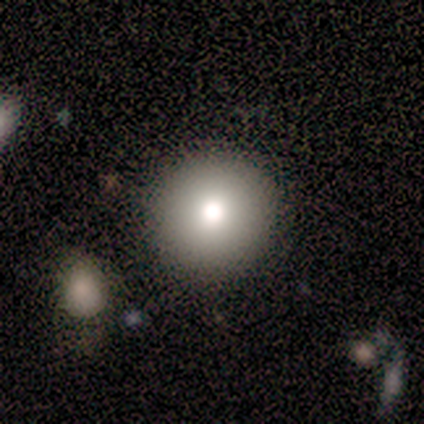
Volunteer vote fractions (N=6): smooth-or-featured: smooth: 83% | star or artifact: 17% | featured or disk: 0%
  how-rounded: round: 100% | in between: 0% | cigar-shaped: 0%
  merging: none: 80% | minor disturbance: 20% | major disturbance: 0% | merger: 0%